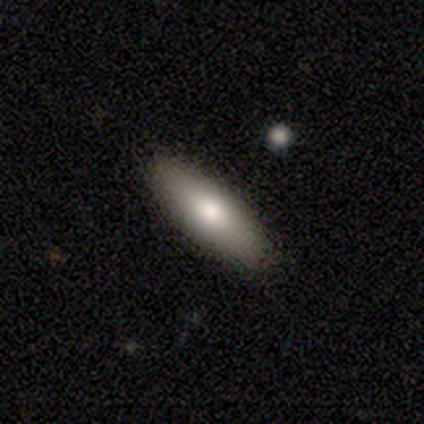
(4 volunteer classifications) A smooth galaxy with no disk features (75%) that is in between round and cigar-shaped (100%).

Vote fractions:
- Smooth or featured? smooth: 75% / featured or disk: 25% / star or artifact: 0%
- How rounded? in between: 100% / round: 0% / cigar-shaped: 0%
- Merging? none: 100% / minor disturbance: 0% / major disturbance: 0% / merger: 0%